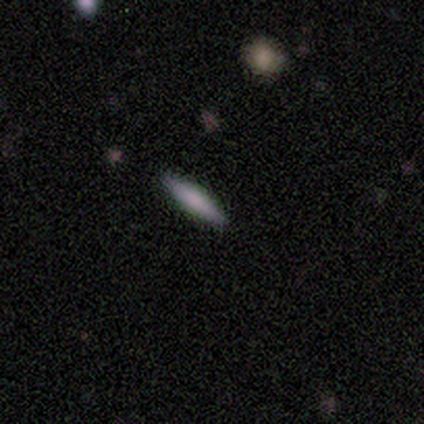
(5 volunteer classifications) A smooth galaxy with no disk features (100%) that is cigar-shaped (80%).

Vote fractions:
- Smooth or featured? smooth: 100% / featured or disk: 0% / star or artifact: 0%
- How rounded? cigar-shaped: 80% / in between: 20% / round: 0%
- Merging? none: 100% / minor disturbance: 0% / major disturbance: 0% / merger: 0%